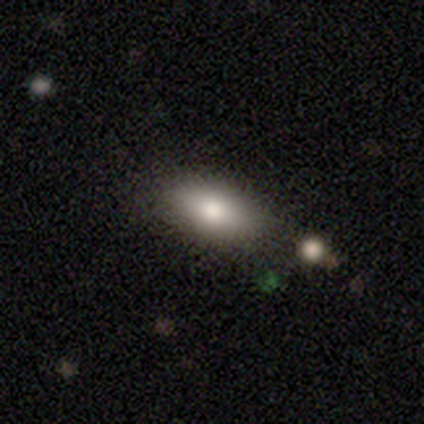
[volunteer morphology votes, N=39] This appears to be a smooth galaxy with no disk features (82%) that is in between round and cigar-shaped (97%). Merging: none (47%).